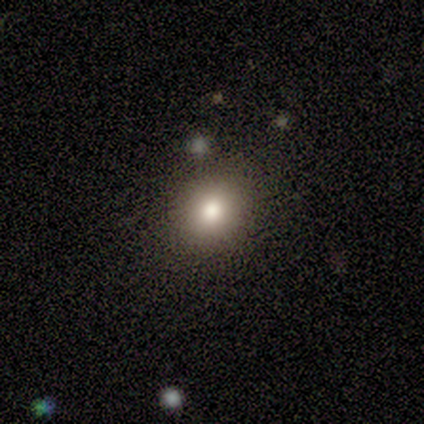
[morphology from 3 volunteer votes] This is likely a smooth galaxy (67%). How rounded: clearly round (100%). Merging: likely none (67%).